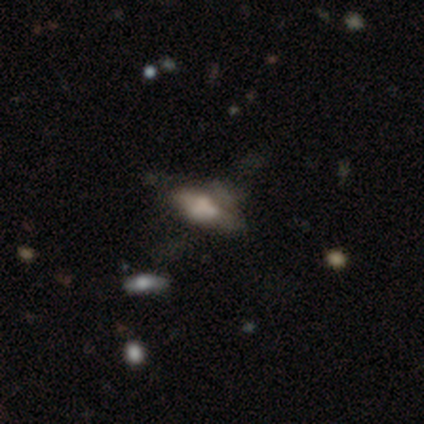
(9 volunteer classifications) Smooth or featured? smooth (67%)
How rounded? in between (83%)
Merging? major disturbance (44%)